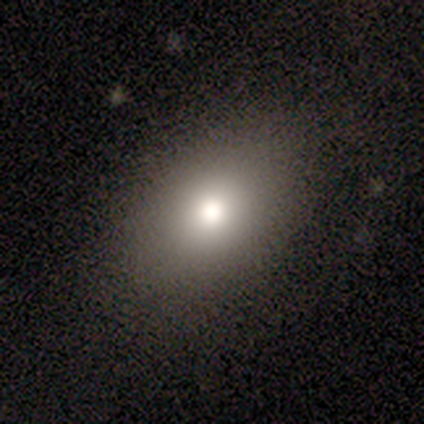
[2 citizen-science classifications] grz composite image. It shows a smooth galaxy with no disk features (100%) that is round (50%, tied with in between). Merging: none (100%).